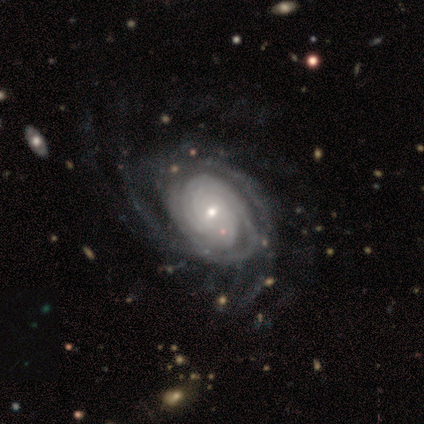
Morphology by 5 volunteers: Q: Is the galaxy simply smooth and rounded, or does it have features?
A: featured or disk — 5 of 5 (100%).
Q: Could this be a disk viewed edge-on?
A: no — 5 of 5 (100%).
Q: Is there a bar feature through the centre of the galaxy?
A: weak — 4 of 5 (80%).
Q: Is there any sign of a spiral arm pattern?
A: yes — 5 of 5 (100%).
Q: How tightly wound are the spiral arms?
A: tight — 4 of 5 (80%).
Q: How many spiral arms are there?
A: more than 4 — 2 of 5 (40%).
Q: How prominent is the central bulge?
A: moderate — 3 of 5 (60%).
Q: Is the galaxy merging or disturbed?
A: none — 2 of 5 (40%, tied with minor disturbance).